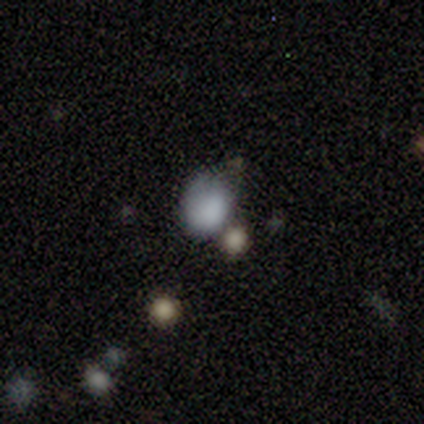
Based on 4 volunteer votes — Smooth or featured?
  - smooth: 75% *
  - star or artifact: 25%
  - featured or disk: 0%
How rounded?
  - round: 67% *
  - in between: 33%
  - cigar-shaped: 0%
Merging?
  - minor disturbance: 67% *
  - none: 33%
  - major disturbance: 0%
  - merger: 0%